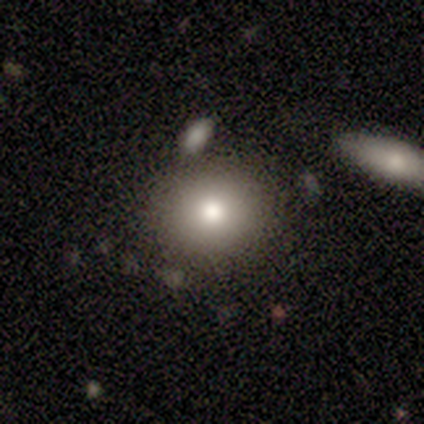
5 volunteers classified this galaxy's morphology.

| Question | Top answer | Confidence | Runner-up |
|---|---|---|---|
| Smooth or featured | smooth | 80% | featured or disk (20%) |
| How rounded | round | 100% | — |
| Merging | none | 60% | merger (40%) |